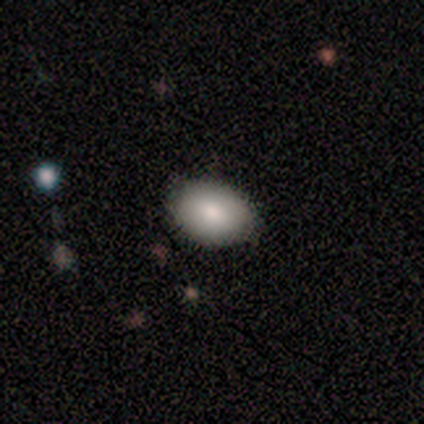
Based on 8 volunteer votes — Smooth or featured?
  - smooth: 75% *
  - featured or disk: 12%
  - star or artifact: 12%
How rounded?
  - in between: 67% *
  - round: 33%
  - cigar-shaped: 0%
Merging?
  - none: 86% *
  - merger: 14%
  - minor disturbance: 0%
  - major disturbance: 0%